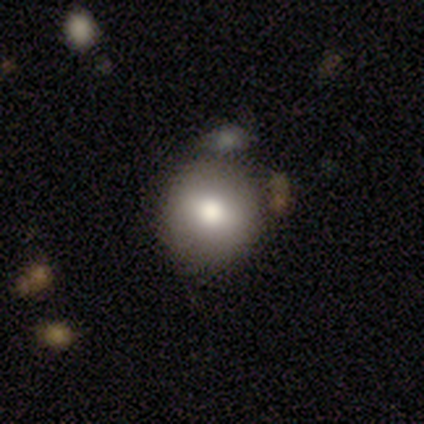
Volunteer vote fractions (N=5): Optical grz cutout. It shows a smooth galaxy with no disk features (80%) that is round (100%). Merging: none (80%).